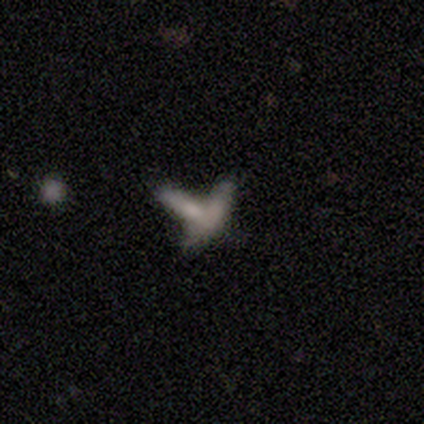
Smooth or featured?
  - smooth: 40% * (tied)
  - star or artifact: 40% * (tied)
  - featured or disk: 20%
How rounded?
  - cigar-shaped: 100% *
  - round: 0%
  - in between: 0%
Merging?
  - merger: 67% *
  - none: 33%
  - minor disturbance: 0%
  - major disturbance: 0%